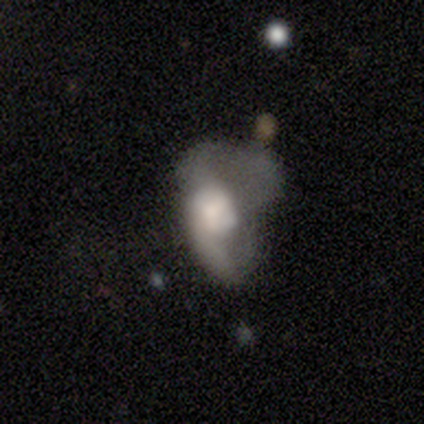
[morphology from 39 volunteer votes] This is possibly a featured or disk galaxy (51%). It is clearly not viewed edge-on (95%). Bar: likely no (79%). Spiral arm pattern: likely yes (74%). Spiral arm count: marginally 1 (43%). Spiral winding: likely loose (64%). Central bulge: marginally large (32%). Merging: likely major disturbance (76%).